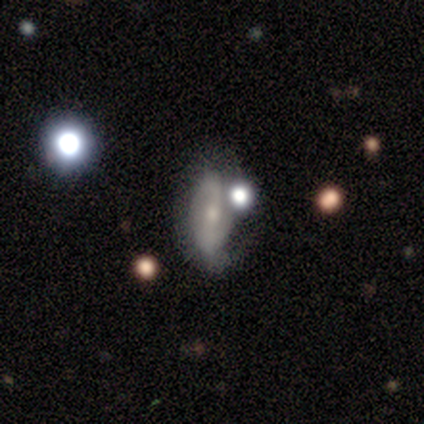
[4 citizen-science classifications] Smooth or featured: featured or disk — 75% (smooth — 25%)
Edge-on disk: no — 100%
Bar: strong — 33% (tied with weak — 33%; no — 33%)
Spiral arms: yes — 100%
Spiral winding: loose — 67% (tight — 33%)
Spiral arm count: 1 — 33% (tied with 2 — 33%; 3 — 33%)
Bulge size: small — 67% (moderate — 33%)
Merging: major disturbance — 50% (none — 25%)